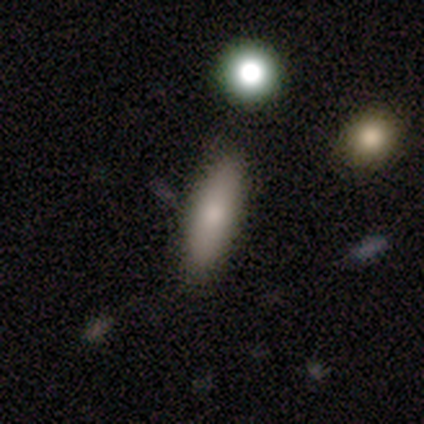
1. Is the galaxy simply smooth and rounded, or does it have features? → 79% smooth, 15% featured or disk, 5% star or artifact.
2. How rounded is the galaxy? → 65% cigar-shaped, 32% in between, 3% round.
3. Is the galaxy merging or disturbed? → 92% none, 8% minor disturbance, 0% major disturbance, 0% merger.